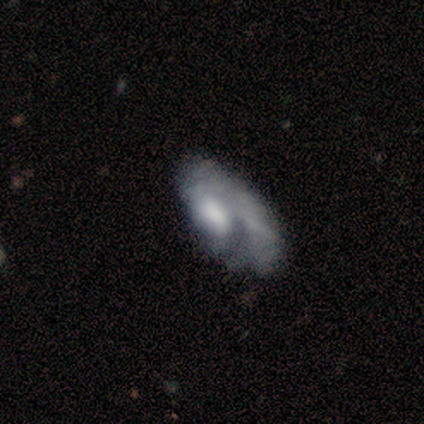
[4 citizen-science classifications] smooth_or_featured: featured or disk (p=0.50) [alt: smooth p=0.25]
disk_edge_on: no (p=1.00)
bar: strong (p=0.50) [tied with: no p=0.50]
has_spiral_arms: yes (p=0.50) [tied with: no p=0.50]
spiral_winding: loose (p=1.00)
spiral_arm_count: 1 (p=1.00)
bulge_size: moderate (p=0.50) [tied with: none p=0.50]
merging: major disturbance (p=0.67) [alt: none p=0.33]